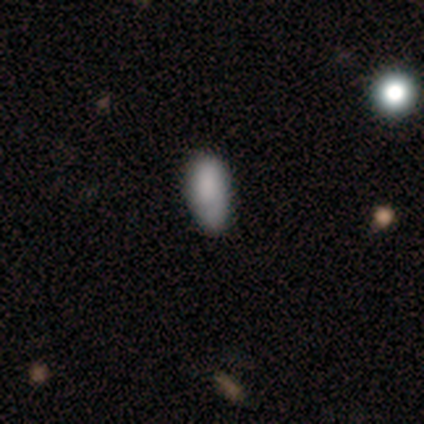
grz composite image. It shows a smooth galaxy with no disk features (80%) that is in between round and cigar-shaped (100%). Merging: none (40%, tied with minor disturbance).